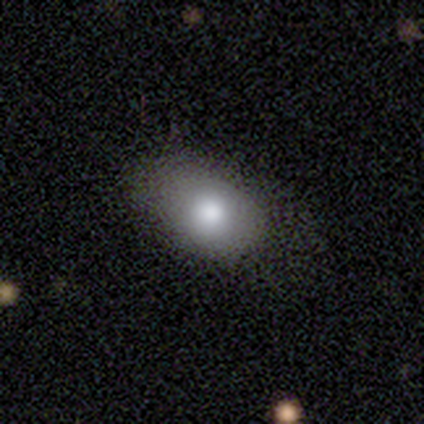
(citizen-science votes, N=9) This appears to be a smooth galaxy with no disk features (78%) that is in between round and cigar-shaped (86%). Merging: none (75%).